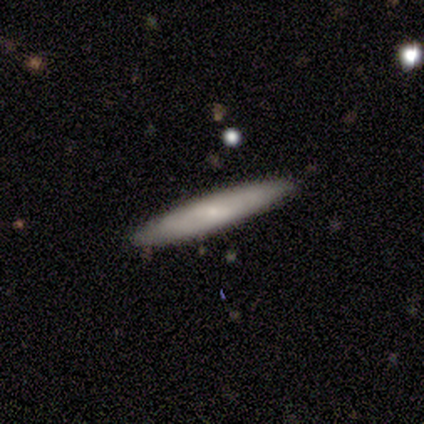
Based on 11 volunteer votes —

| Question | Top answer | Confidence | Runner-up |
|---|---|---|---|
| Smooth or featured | smooth | 82% | featured or disk (9%) |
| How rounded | cigar-shaped | 100% | — |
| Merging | none | 90% | minor disturbance (10%) |